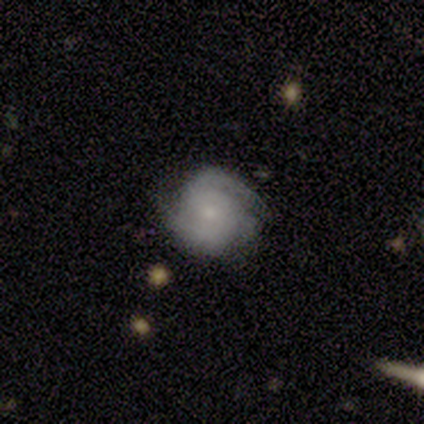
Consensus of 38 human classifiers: smooth-or-featured: featured or disk: 87% | smooth: 11% | star or artifact: 3%
  disk-edge-on: no: 88% | yes: 12%
    bar: no: 66% | weak: 34% | strong: 0%
    has-spiral-arms: yes: 97% | no: 3%
      spiral-winding: medium: 54% | tight: 39% | loose: 7%
      spiral-arm-count: 2: 61% | 3: 18% | can't tell: 18% | 1: 4% | 4: 0% | more than 4: 0%
    bulge-size: small: 66% | moderate: 28% | none: 7% | dominant: 0% | large: 0%
  merging: none: 73% | minor disturbance: 24% | merger: 3% | major disturbance: 0%